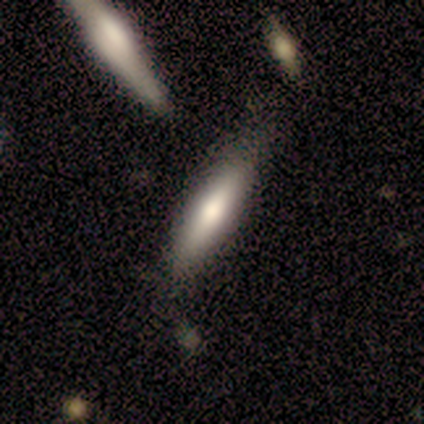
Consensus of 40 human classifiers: This is likely a smooth galaxy (70%). How rounded: clearly cigar-shaped (86%). Merging: likely none (75%).